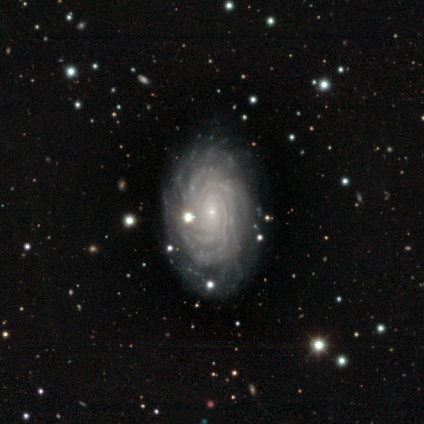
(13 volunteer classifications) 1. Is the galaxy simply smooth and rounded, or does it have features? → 85% featured or disk, 15% star or artifact, 0% smooth.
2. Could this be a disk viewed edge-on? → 91% no, 9% yes.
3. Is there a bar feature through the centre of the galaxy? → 70% no, 20% strong, 10% weak.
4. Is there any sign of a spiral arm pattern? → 100% yes, 0% no.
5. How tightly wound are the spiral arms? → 80% tight, 20% medium, 0% loose.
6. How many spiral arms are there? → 60% more than 4, 30% 2, 10% can't tell, 0% 1, 0% 3, 0% 4.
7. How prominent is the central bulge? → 80% small, 10% moderate, 10% none, 0% dominant, 0% large.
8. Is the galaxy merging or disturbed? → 82% none, 18% minor disturbance, 0% major disturbance, 0% merger.